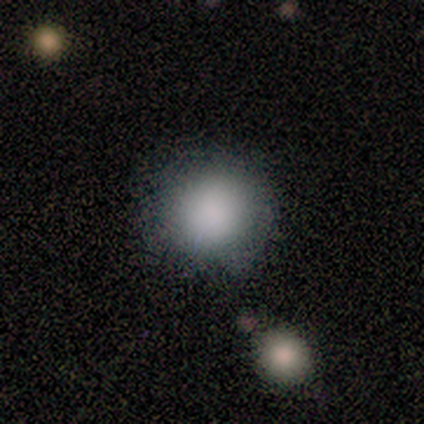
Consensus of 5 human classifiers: smooth 100%, featured or disk 0%, star or artifact 0%. Down the decision tree: how rounded — round (100%); merging — none (100%).